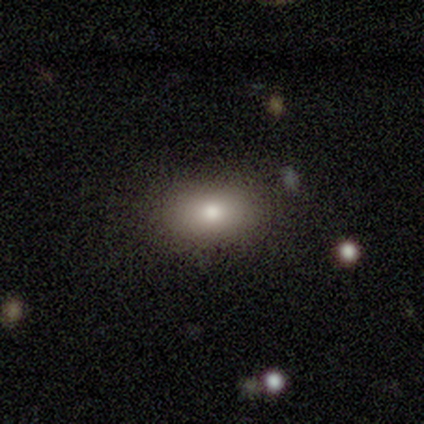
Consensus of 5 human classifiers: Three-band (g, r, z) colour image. It shows a smooth galaxy with no disk features (80%) that is in between round and cigar-shaped (75%). Merging: none (75%).